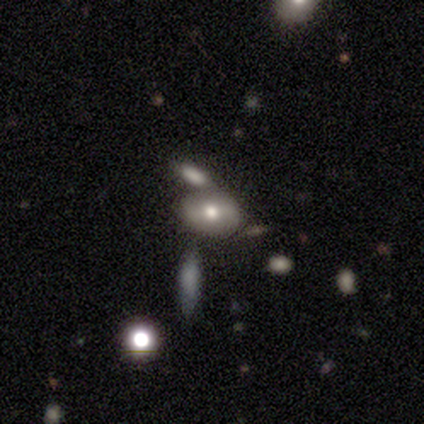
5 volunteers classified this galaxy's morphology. Q: Smooth or featured?
A: smooth (60%); runner-up: featured or disk (40%)
Q: How rounded?
A: round (33%); tied with: in between (33%); cigar-shaped (33%)
Q: Merging?
A: none (40%); tied with: minor disturbance (40%)